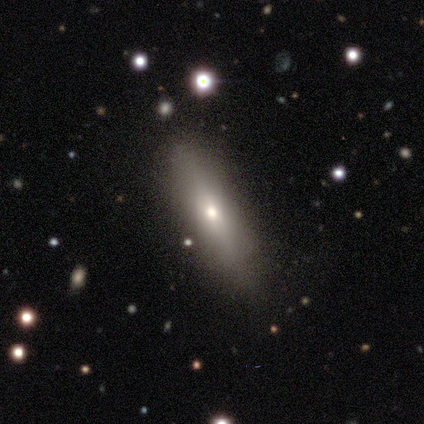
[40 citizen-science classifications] Q: Smooth or featured?
A: smooth (72%); runner-up: featured or disk (20%)
Q: How rounded?
A: cigar-shaped (93%); runner-up: in between (7%)
Q: Merging?
A: none (81%); runner-up: minor disturbance (14%)